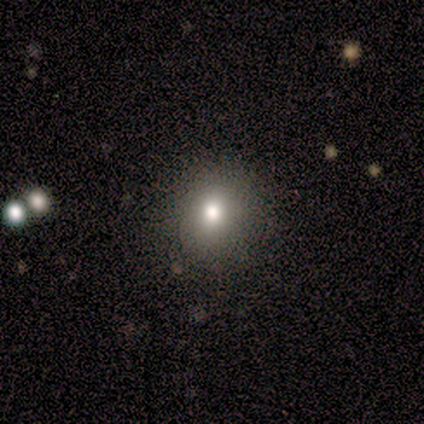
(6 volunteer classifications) smooth_or_featured: smooth (p=1.00)
how_rounded: round (p=1.00)
merging: none (p=1.00)